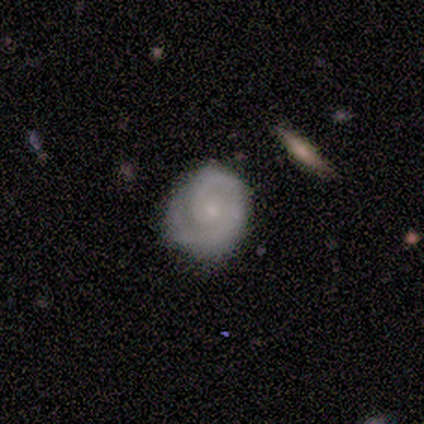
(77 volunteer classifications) Overall: featured or disk (79%). Edge-on disk: no (97%). Bar: no (83%). Spiral arms: yes (98%). Spiral arm count: 2 (55%; 1 40%). Spiral winding: tight (81%). Bulge size: small (61%; moderate 29%). Merging: none (76%).